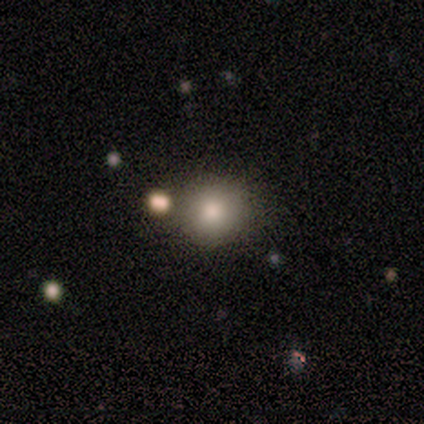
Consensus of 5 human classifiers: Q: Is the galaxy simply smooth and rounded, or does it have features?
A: smooth — 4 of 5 (80%).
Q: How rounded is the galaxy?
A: round — 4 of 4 (100%).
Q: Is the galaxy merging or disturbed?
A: none — 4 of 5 (80%).